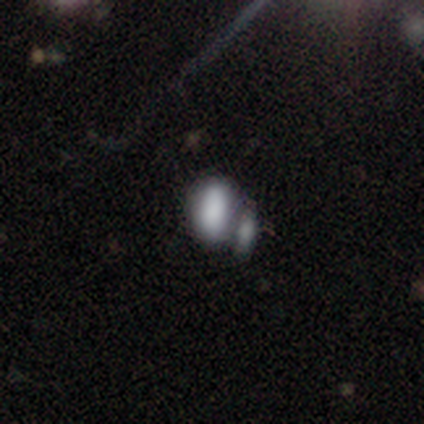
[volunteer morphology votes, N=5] Volunteers were most divided on "merging" (2-way tie): none: 40%, merger: 40%, minor disturbance: 20%, major disturbance: 0%. More confident: how rounded — in between (100%); smooth or featured — smooth (80%).